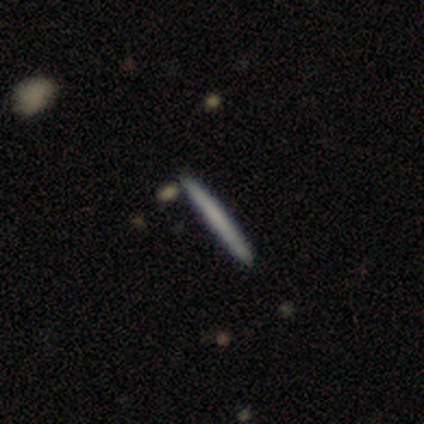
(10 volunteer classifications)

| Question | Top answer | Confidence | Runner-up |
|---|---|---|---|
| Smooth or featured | smooth | 60% | featured or disk (30%) |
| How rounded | cigar-shaped | 100% | — |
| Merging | none | 89% | merger (11%) |